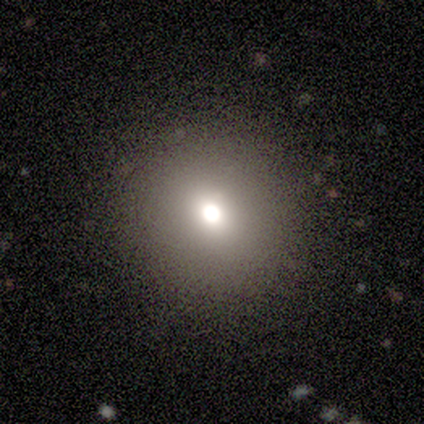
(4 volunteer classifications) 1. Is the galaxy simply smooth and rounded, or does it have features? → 50% smooth, 25% featured or disk, 25% star or artifact.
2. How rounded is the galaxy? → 100% round, 0% in between, 0% cigar-shaped.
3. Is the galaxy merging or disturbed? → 100% none, 0% minor disturbance, 0% major disturbance, 0% merger.